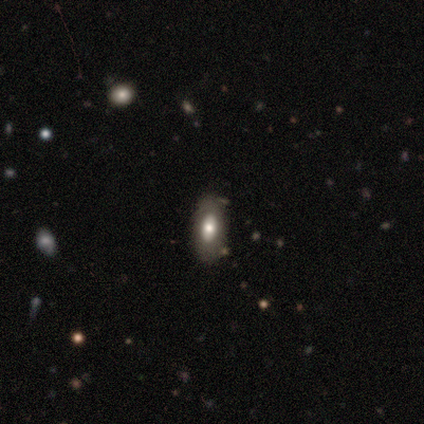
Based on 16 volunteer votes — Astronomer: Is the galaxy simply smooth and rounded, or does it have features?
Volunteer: featured or disk — 50% (runner-up: smooth, 38%).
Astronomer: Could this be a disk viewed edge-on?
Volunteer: no — 88%.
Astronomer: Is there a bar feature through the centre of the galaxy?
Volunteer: no — 100%.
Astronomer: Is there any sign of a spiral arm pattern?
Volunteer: no — 86%.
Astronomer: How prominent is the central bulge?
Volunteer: large — 57%.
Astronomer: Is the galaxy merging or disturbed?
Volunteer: none — 86%.